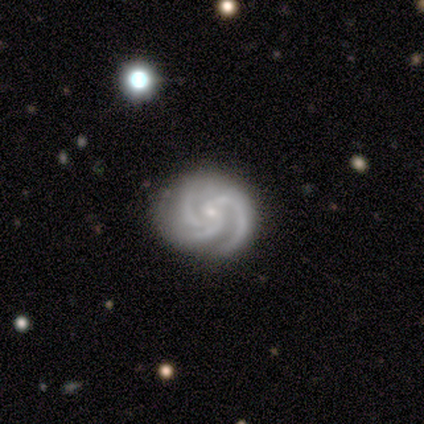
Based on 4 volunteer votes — Smooth or featured? featured or disk (100%)
Edge-on disk? no (100%)
Bar? no (100%)
Spiral arms? yes (100%)
Spiral winding? tight (75%)
Spiral arm count? 3 (100%)
Bulge size? small (100%)
Merging? none (100%)